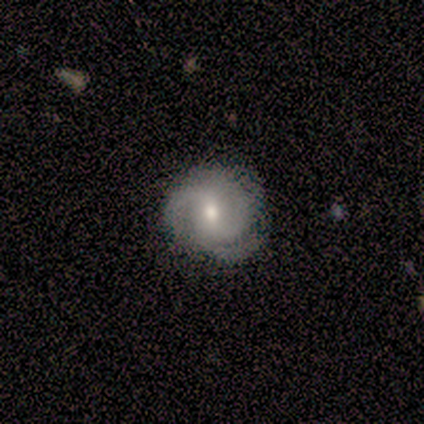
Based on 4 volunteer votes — Overall: featured or disk (100%). Edge-on disk: no (100%). Bar: weak (50%; strong 25%). Spiral arms: yes (100%). Spiral arm count: 3 (75%). Spiral winding: tight (50%, tied with medium). Bulge size: moderate (75%). Merging: none (100%).